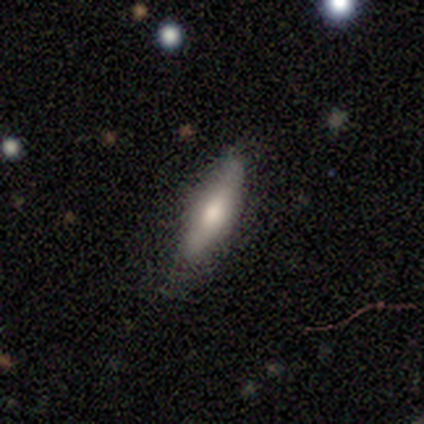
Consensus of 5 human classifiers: A smooth galaxy with no disk features (60%) that is cigar-shaped (100%). Merging: none (100%).